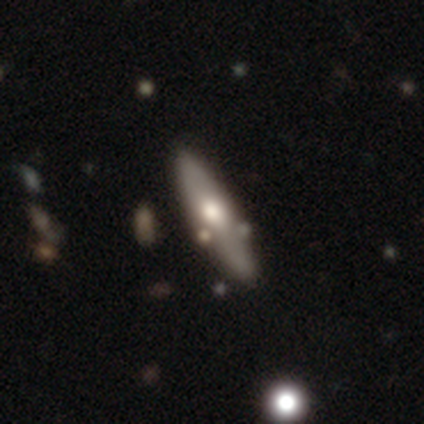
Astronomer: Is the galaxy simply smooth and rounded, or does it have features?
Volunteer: featured or disk — 54% (runner-up: smooth, 38%).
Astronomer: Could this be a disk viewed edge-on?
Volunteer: yes — 65%.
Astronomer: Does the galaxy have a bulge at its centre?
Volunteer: rounded — 85%.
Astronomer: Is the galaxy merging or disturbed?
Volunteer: none — 68%.